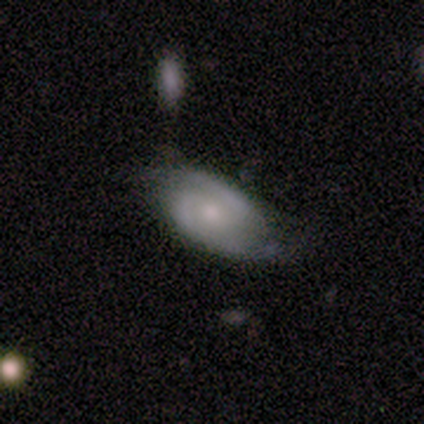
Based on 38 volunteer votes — Smooth or featured: featured or disk — 82% (smooth — 11%)
Edge-on disk: no — 97% (yes — 3%)
Bar: no — 63% (weak — 27%)
Spiral arms: yes — 100%
Spiral winding: medium — 57% (tight — 27%)
Spiral arm count: 2 — 87% (3 — 10%)
Bulge size: small — 53% (moderate — 37%)
Merging: none — 74% (minor disturbance — 20%)